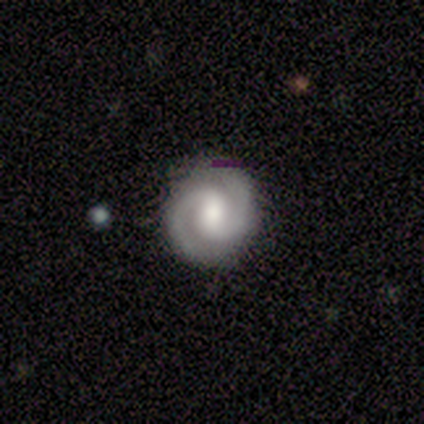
This is clearly a featured or disk galaxy (83%). It is clearly not viewed edge-on (100%). Bar: likely weak (63%). Spiral arm pattern: clearly yes (100%). Spiral arm count: clearly 2 (97%). Spiral winding: likely tight (77%). Central bulge: possibly moderate (57%). Merging: clearly none (91%).